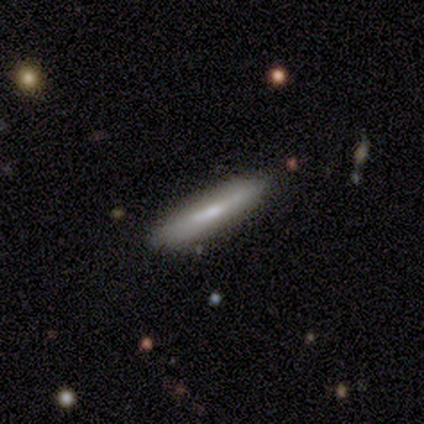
smooth 60%, featured or disk 40%, star or artifact 0%. Down the decision tree: how rounded — cigar-shaped (100%); merging — minor disturbance (60%).